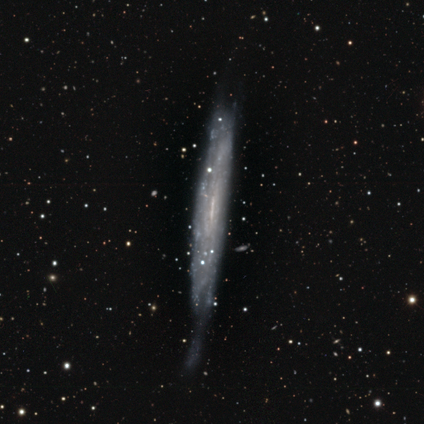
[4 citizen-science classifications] Volunteers were most divided on "merging": minor disturbance: 50%, none: 25%, major disturbance: 25%, merger: 0%. More confident: smooth or featured — featured or disk (100%); edge-on bulge — none (100%); edge-on disk — yes (75%).